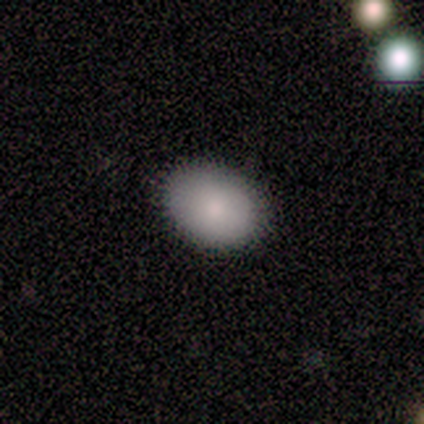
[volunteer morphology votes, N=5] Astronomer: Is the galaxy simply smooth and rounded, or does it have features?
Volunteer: smooth — 100%.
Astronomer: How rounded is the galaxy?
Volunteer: in between — 100%.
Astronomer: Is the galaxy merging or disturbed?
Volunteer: none — 100%.